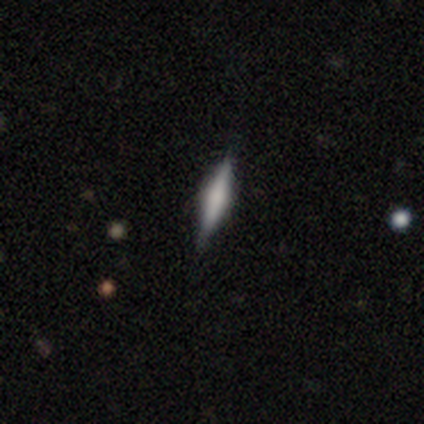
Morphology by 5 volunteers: This is clearly a smooth galaxy (80%). How rounded: clearly cigar-shaped (100%). Merging: likely none (60%).